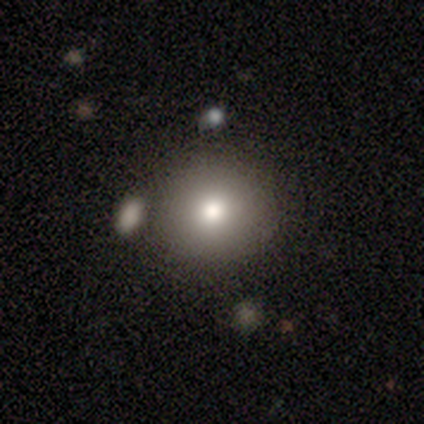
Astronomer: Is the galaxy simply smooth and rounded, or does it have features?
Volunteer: smooth — 80%.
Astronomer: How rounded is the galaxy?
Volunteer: round — 84%.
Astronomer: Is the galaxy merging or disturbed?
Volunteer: none — 79%.